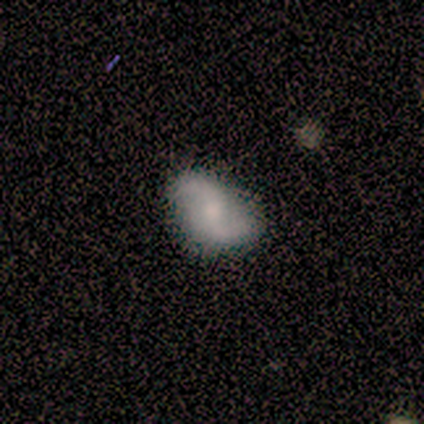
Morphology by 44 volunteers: Smooth or featured?
  - featured or disk: 64% *
  - smooth: 27%
  - star or artifact: 9%
Edge-on disk?
  - no: 100% *
  - yes: 0%
Bar?
  - no: 61% *
  - weak: 25%
  - strong: 14%
Spiral arms?
  - yes: 93% *
  - no: 7%
Spiral winding?
  - loose: 77% *
  - medium: 23%
  - tight: 0%
Spiral arm count?
  - 2: 92% *
  - 1: 4%
  - can't tell: 4%
  - 3: 0%
  - 4: 0%
  - more than 4: 0%
Bulge size?
  - small: 43% *
  - moderate: 39%
  - none: 11%
  - dominant: 4%
  - large: 4%
Merging?
  - none: 78% *
  - minor disturbance: 18%
  - major disturbance: 5%
  - merger: 0%